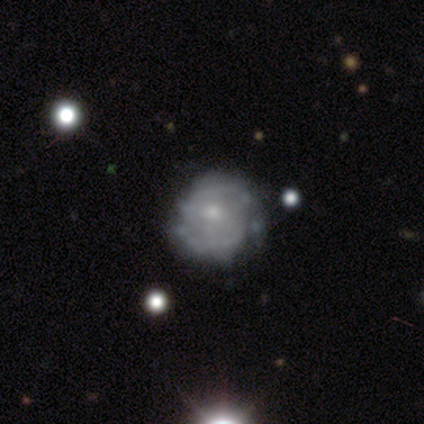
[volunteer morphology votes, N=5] Overall: featured or disk (80%). Edge-on disk: no (100%). Bar: weak (50%; strong 25%). Spiral arms: yes (75%). Spiral arm count: 2 (67%; can't tell 33%). Spiral winding: medium (100%). Bulge size: moderate (50%, tied with small). Merging: none (80%).